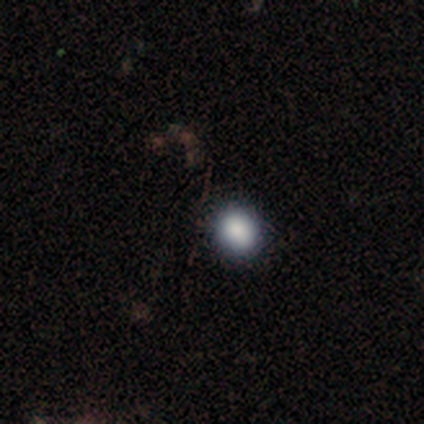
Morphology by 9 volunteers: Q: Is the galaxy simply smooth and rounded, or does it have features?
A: smooth — 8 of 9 (89%).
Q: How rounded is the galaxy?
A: in between — 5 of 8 (62%).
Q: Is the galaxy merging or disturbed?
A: none — 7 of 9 (78%).